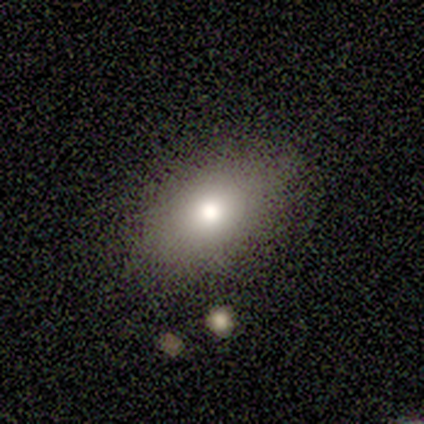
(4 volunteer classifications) Smooth or featured? smooth (75%)
How rounded? in between (100%)
Merging? none (67%)